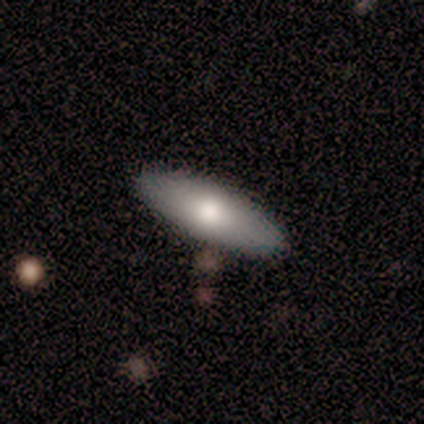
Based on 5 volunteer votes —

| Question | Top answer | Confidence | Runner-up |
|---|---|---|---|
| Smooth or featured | smooth | 60% | featured or disk (40%) |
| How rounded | in between | 67% | cigar-shaped (33%) |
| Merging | none | 100% | — |